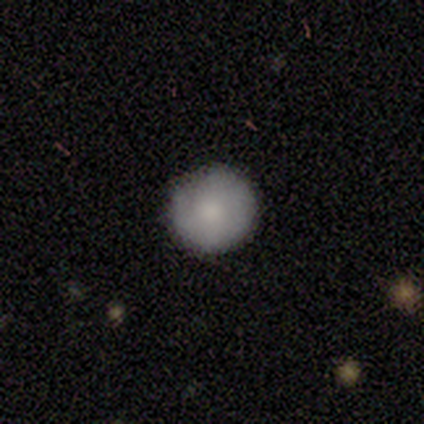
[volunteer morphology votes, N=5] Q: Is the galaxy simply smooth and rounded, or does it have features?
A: smooth — 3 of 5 (60%).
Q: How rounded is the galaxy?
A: round — 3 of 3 (100%).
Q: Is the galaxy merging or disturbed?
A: none — 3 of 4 (75%).